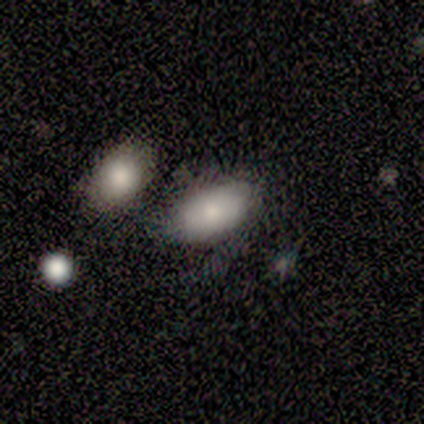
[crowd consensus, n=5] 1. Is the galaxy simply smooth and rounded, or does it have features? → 60% smooth, 40% featured or disk, 0% star or artifact.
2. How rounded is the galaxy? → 100% in between, 0% round, 0% cigar-shaped.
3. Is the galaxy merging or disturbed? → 60% none, 20% major disturbance, 20% merger, 0% minor disturbance.